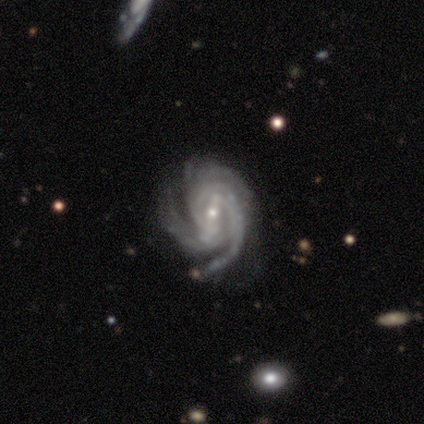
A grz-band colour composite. It shows a featured or disk galaxy (100%) with a strong bar (40%, tied with weak), 2 (40%, tied with can't tell) tight (60%) spiral arms (100%) and a small central bulge (60%). Merging: minor disturbance (60%).